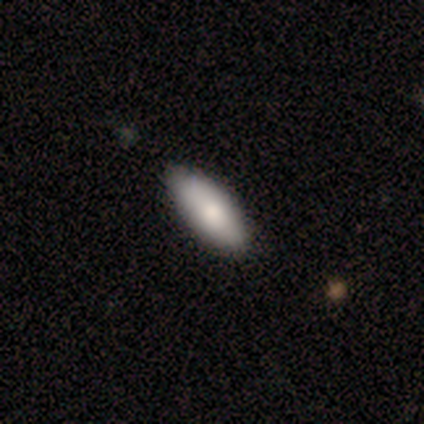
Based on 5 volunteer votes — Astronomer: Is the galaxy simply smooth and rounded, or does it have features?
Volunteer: smooth — 80%.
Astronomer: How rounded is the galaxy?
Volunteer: in between — 75%.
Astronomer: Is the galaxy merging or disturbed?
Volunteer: none — 100%.